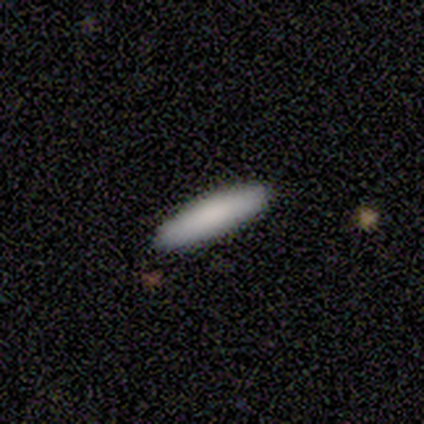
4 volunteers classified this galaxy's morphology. Overall: smooth (100%). How rounded: cigar-shaped (100%). Merging: none (100%).